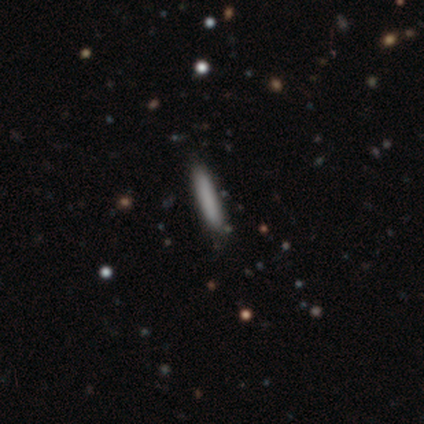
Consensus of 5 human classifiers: Smooth or featured?
  - smooth: 100% *
  - featured or disk: 0%
  - star or artifact: 0%
How rounded?
  - cigar-shaped: 100% *
  - round: 0%
  - in between: 0%
Merging?
  - none: 100% *
  - minor disturbance: 0%
  - major disturbance: 0%
  - merger: 0%